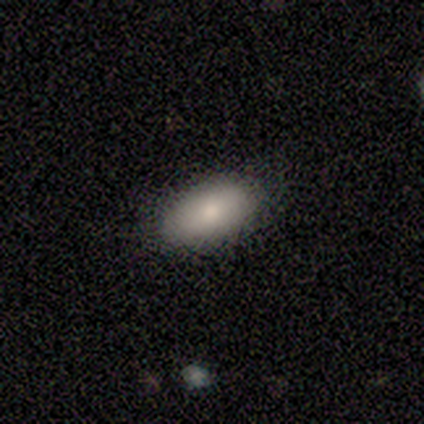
A smooth galaxy with no disk features (88%) that is in between round and cigar-shaped (100%). Merging: none (95%).